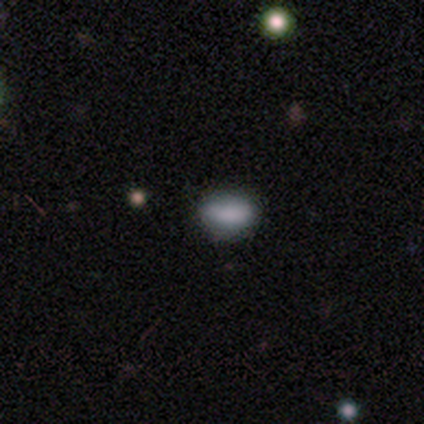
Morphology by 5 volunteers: Overall: smooth (100%). How rounded: in between (100%). Merging: none (80%).